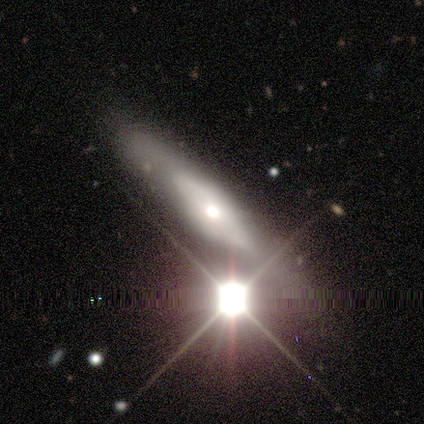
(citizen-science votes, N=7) smooth-or-featured: smooth: 43% | featured or disk: 29% | star or artifact: 29%
  how-rounded: cigar-shaped: 67% | in between: 33% | round: 0%
  merging: none: 80% | merger: 20% | minor disturbance: 0% | major disturbance: 0%